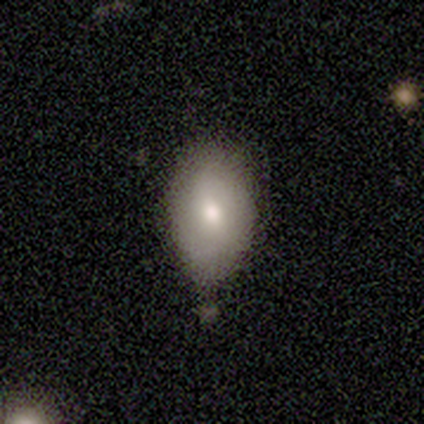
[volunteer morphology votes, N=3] Q: Smooth or featured?
A: smooth (67%); runner-up: featured or disk (33%)
Q: How rounded?
A: in between (100%)
Q: Merging?
A: minor disturbance (67%); runner-up: none (33%)